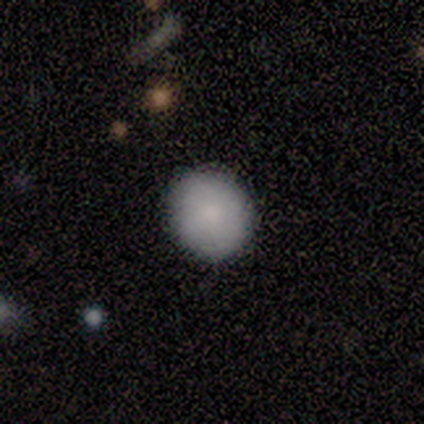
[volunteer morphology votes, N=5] Smooth or featured? smooth (100%)
How rounded? round (100%)
Merging? none (60%)